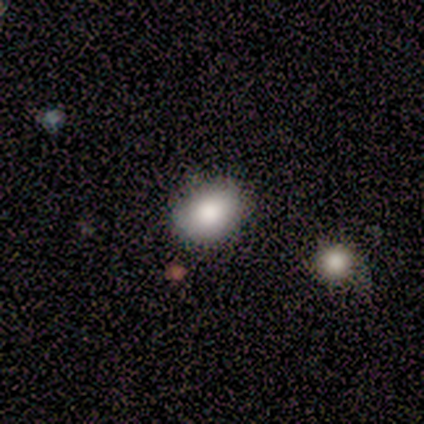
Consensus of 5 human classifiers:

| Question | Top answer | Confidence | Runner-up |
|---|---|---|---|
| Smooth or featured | smooth | 80% | featured or disk (20%) |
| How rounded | in between | 75% | round (25%) |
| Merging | none | 60% | minor disturbance (20%) |